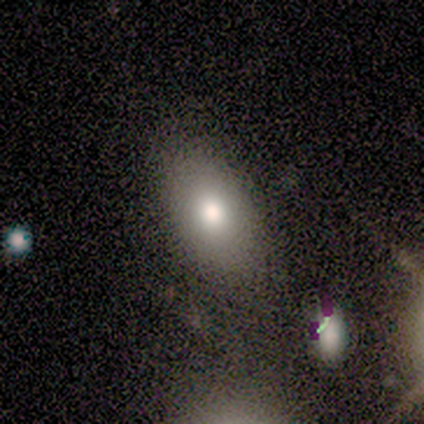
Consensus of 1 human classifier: smooth 100%, featured or disk 0%, star or artifact 0%. Down the decision tree: how rounded — in between (100%); merging — none (100%).